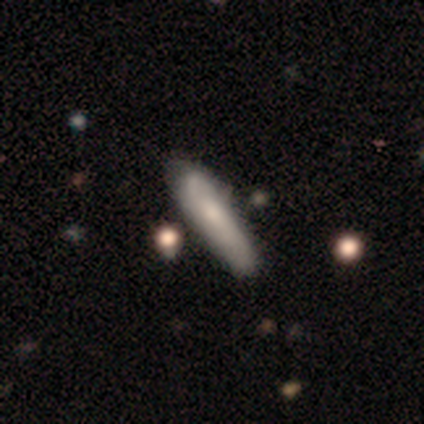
Overall: smooth (100%). How rounded: cigar-shaped (80%). Merging: none (80%).